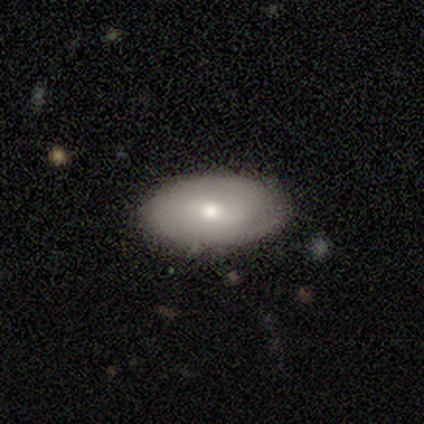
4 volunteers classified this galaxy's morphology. This is possibly a smooth galaxy (50%, tied with featured or disk). How rounded: clearly in between (100%). Merging: clearly none (100%).